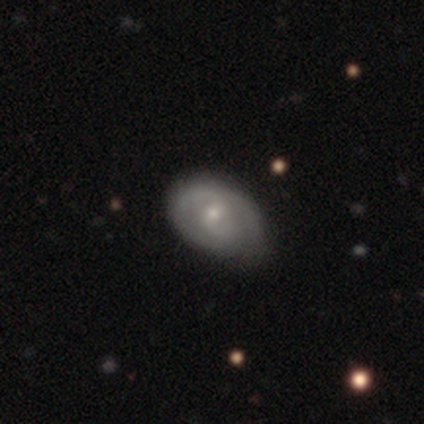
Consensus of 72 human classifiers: A featured or disk galaxy (58%) with a weak bar (51%), 2 (55%) tight (65%) spiral arms (76%) and a small central bulge (54%).

Vote fractions:
- Smooth or featured? featured or disk: 58% / smooth: 38% / star or artifact: 4%
- Edge-on disk? no: 98% / yes: 2%
- Bar? weak: 51% / no: 41% / strong: 7%
- Spiral arms? yes: 76% / no: 24%
- Spiral winding? tight: 65% / medium: 29% / loose: 6%
- Spiral arm count? 2: 55% / can't tell: 35% / 1: 10% / 3: 0% / 4: 0% / more than 4: 0%
- Bulge size? small: 54% / moderate: 46% / dominant: 0% / large: 0% / none: 0%
- Merging? none: 58% / minor disturbance: 38% / major disturbance: 3% / merger: 1%